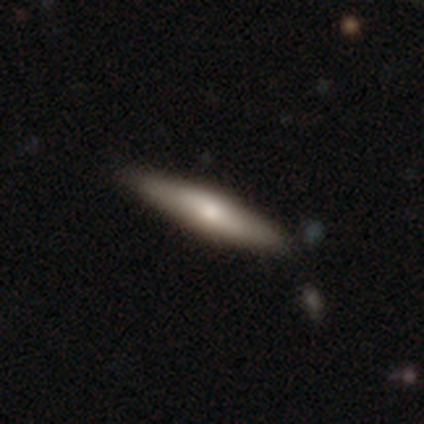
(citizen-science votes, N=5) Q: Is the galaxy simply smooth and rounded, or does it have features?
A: smooth — 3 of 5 (60%).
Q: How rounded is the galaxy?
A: cigar-shaped — 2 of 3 (67%).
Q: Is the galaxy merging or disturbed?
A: none — 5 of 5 (100%).